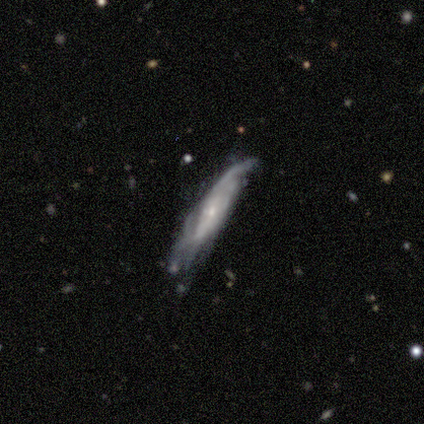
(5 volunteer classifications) Smooth or featured?
  - featured or disk: 80% *
  - smooth: 20%
  - star or artifact: 0%
Edge-on disk?
  - yes: 75% *
  - no: 25%
Edge-on bulge?
  - rounded: 67% *
  - boxy: 33%
  - none: 0%
Merging?
  - none: 100% *
  - minor disturbance: 0%
  - major disturbance: 0%
  - merger: 0%